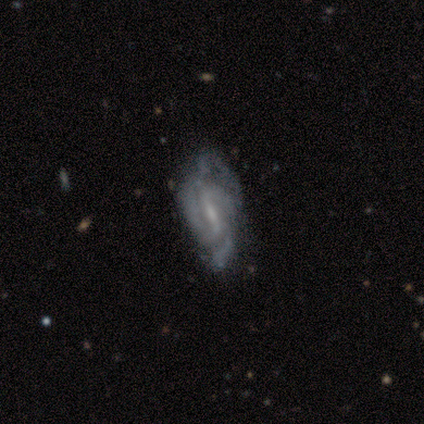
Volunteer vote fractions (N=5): featured or disk 100%, smooth 0%, star or artifact 0%. Down the decision tree: edge-on disk — no (80%); bar — weak (75%); spiral arms — yes (75%); spiral arm count — 3 (67%); spiral winding — medium (67%); bulge size — small (75%); merging — minor disturbance (80%).